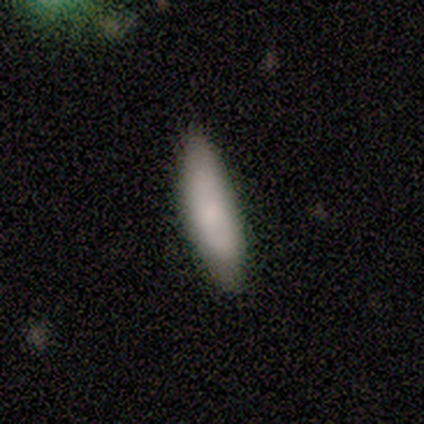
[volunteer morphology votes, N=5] Q: Smooth or featured?
A: smooth (80%); runner-up: featured or disk (20%)
Q: How rounded?
A: cigar-shaped (75%); runner-up: in between (25%)
Q: Merging?
A: none (60%); runner-up: minor disturbance (40%)